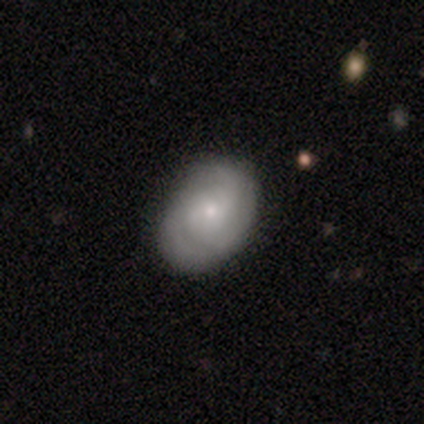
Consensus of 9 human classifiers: featured or disk 78%, smooth 11%, star or artifact 11%. Down the decision tree: edge-on disk — no (100%); bar — no (57%); spiral arms — yes (100%); spiral arm count — 2 (57%); spiral winding — tight (57%); bulge size — small (86%); merging — none (75%).